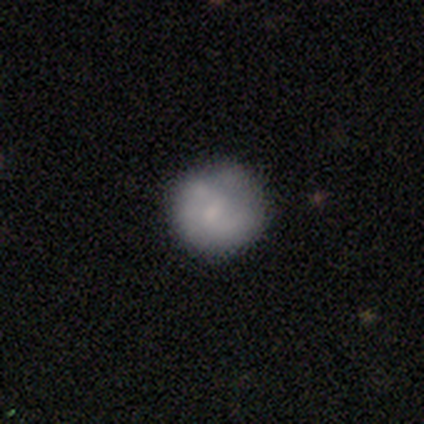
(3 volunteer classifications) Q: Smooth or featured?
A: smooth (67%); runner-up: featured or disk (33%)
Q: How rounded?
A: round (100%)
Q: Merging?
A: none (100%)